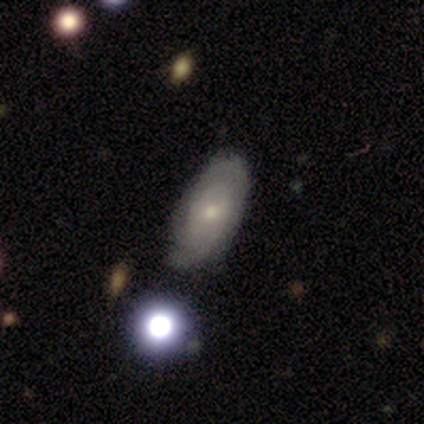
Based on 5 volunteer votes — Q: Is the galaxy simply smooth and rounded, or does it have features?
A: smooth — 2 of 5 (40%, tied with star or artifact).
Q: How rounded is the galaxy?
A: in between — 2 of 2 (100%).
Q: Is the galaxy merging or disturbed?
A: none — 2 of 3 (67%).